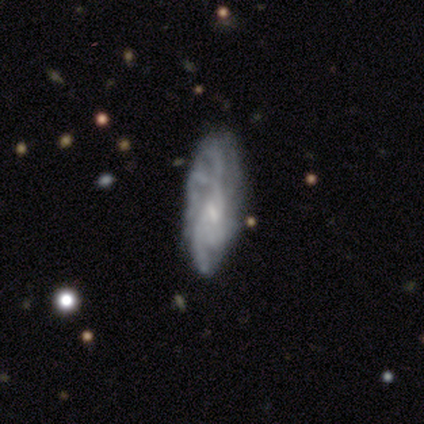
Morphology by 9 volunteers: This appears to be a featured or disk galaxy (100%) with a weak bar (44%, tied with no), tight (38%, tied with loose) spiral arms (89%) and a small central bulge (89%). Merging: none (67%).